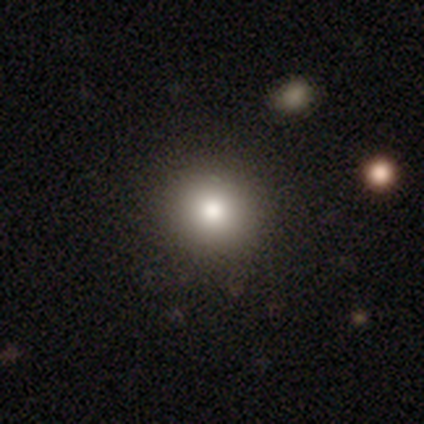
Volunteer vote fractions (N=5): Overall: smooth (80%). How rounded: round (100%). Merging: none (60%; minor disturbance 20%).